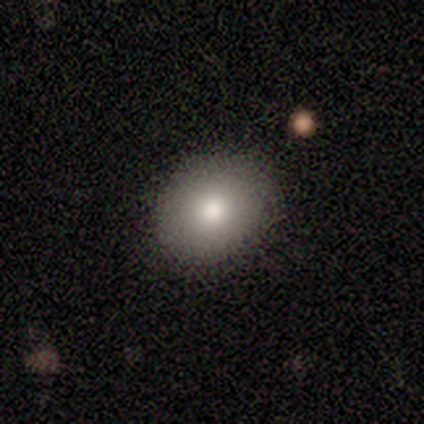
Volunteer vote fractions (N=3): A smooth galaxy with no disk features (100%) that is round (67%).

Vote fractions:
- Smooth or featured? smooth: 100% / featured or disk: 0% / star or artifact: 0%
- How rounded? round: 67% / in between: 33% / cigar-shaped: 0%
- Merging? none: 100% / minor disturbance: 0% / major disturbance: 0% / merger: 0%